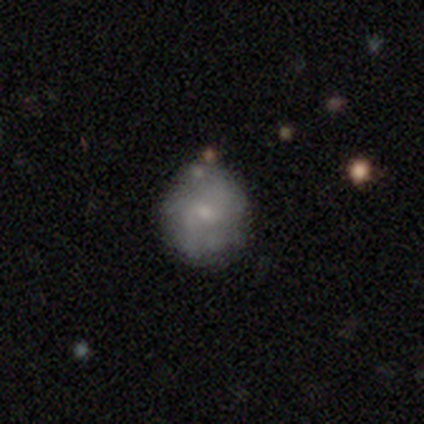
Morphology: type=smooth (75%); roundness=round (100%); merging=none (50%, tied with minor disturbance).